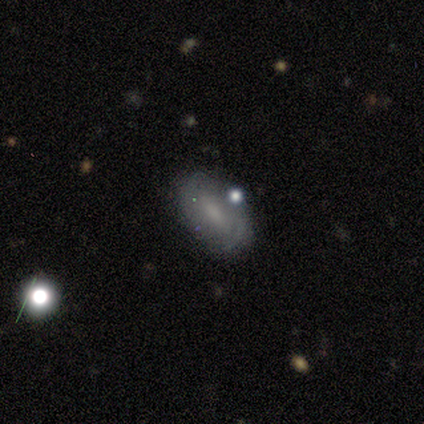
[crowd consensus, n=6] Smooth or featured? featured or disk (67%)
Edge-on disk? no (100%)
Bar? weak (75%)
Spiral arms? yes (75%)
Spiral winding? medium (67%)
Spiral arm count? 2 (67%)
Bulge size? small (75%)
Merging? none (67%)